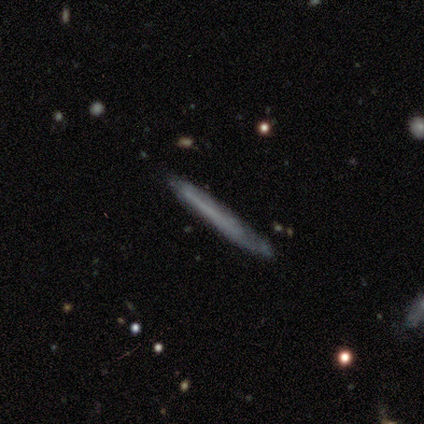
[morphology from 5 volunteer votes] Smooth or featured? featured or disk (60%)
Edge-on disk? yes (100%)
Edge-on bulge? none (100%)
Merging? none (60%)